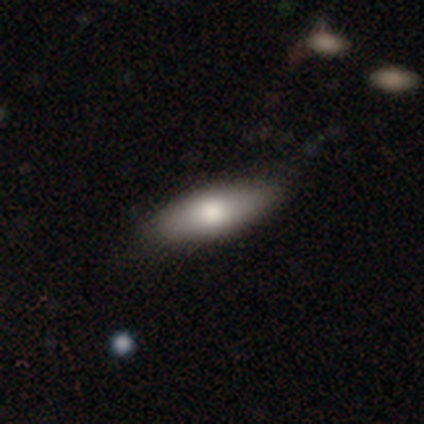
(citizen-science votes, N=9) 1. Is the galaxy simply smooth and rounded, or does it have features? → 78% smooth, 22% featured or disk, 0% star or artifact.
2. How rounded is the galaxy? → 86% in between, 14% cigar-shaped, 0% round.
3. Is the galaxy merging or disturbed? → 100% none, 0% minor disturbance, 0% major disturbance, 0% merger.